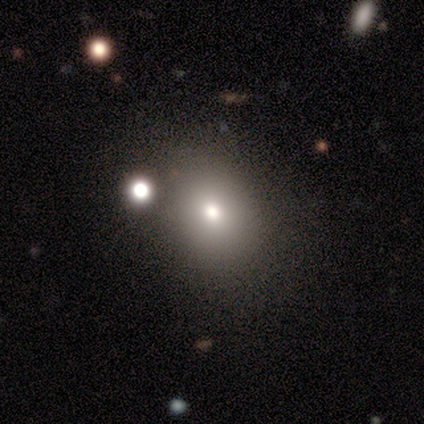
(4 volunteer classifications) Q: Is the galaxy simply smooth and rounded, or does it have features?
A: smooth — 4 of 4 (100%).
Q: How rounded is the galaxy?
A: round — 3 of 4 (75%).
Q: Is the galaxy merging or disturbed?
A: none — 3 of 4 (75%).